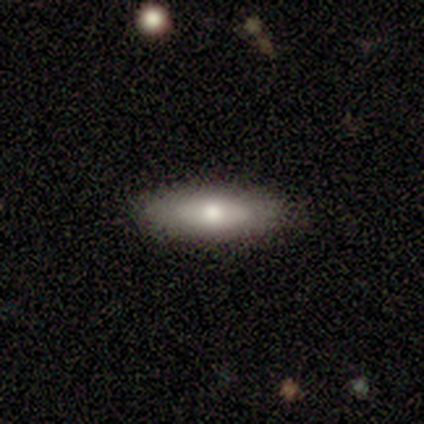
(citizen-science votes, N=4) Smooth or featured: smooth — 75% (star or artifact — 25%)
How rounded: cigar-shaped — 67% (in between — 33%)
Merging: none — 100%